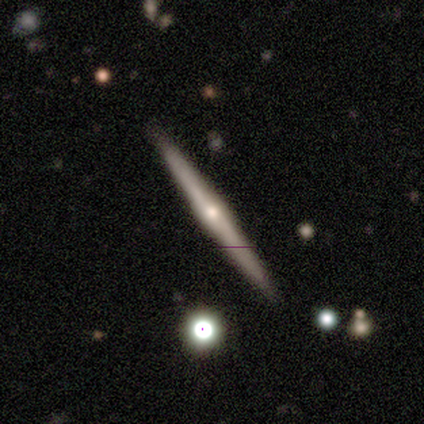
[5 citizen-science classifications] Consensus on every question: smooth or featured — featured or disk (100%); edge-on disk — yes (100%); edge-on bulge — rounded (100%); merging — none (100%).